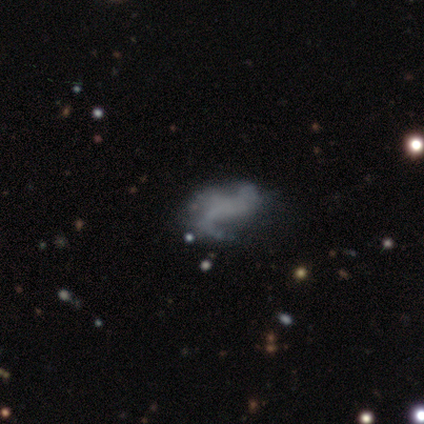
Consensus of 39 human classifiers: A featured or disk galaxy (64%) with no bar (52%), 2 (50%) loose (83%) spiral arms (72%) and no central bulge (92%).

Vote fractions:
- Smooth or featured? featured or disk: 64% / smooth: 31% / star or artifact: 5%
- Edge-on disk? no: 100% / yes: 0%
- Bar? no: 52% / weak: 36% / strong: 12%
- Spiral arms? yes: 72% / no: 28%
- Spiral winding? loose: 83% / medium: 11% / tight: 6%
- Spiral arm count? 2: 50% / 3: 33% / can't tell: 11% / 1: 6% / 4: 0% / more than 4: 0%
- Bulge size? none: 92% / moderate: 4% / small: 4% / dominant: 0% / large: 0%
- Merging? none: 24% / major disturbance: 14% / minor disturbance: 11% / merger: 8%